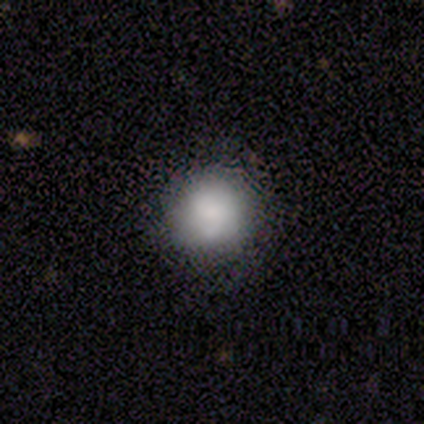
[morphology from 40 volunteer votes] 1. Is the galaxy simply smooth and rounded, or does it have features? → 70% smooth, 20% featured or disk, 10% star or artifact.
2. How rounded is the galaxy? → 96% round, 4% in between, 0% cigar-shaped.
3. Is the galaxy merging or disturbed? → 89% none, 8% minor disturbance, 3% merger, 0% major disturbance.